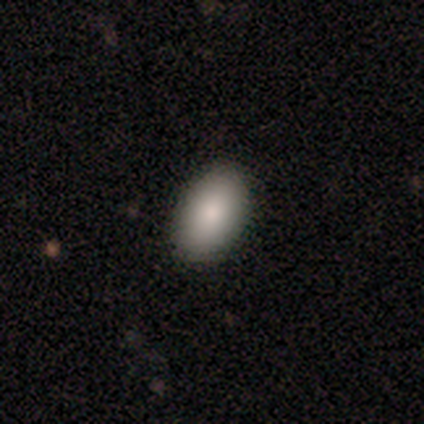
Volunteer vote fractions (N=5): A smooth galaxy with no disk features (100%) that is in between round and cigar-shaped (100%). Merging: none (100%).